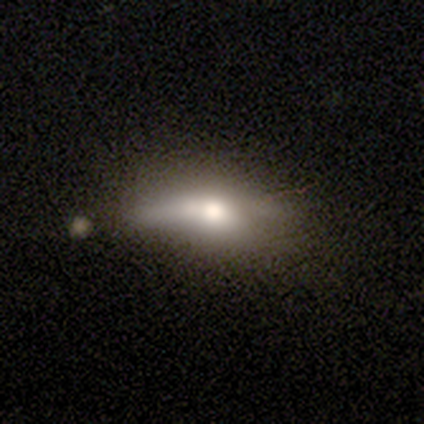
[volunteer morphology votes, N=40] Smooth or featured? 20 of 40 (50%) said smooth. How rounded? 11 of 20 (55%) said in between. Merging? 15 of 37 (41%) said none.